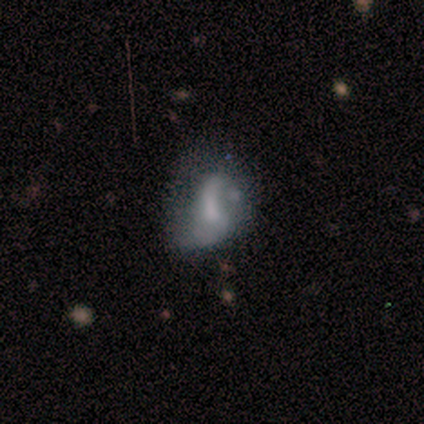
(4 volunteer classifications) Smooth or featured? 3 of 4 (75%) said featured or disk. Edge-on disk? 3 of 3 (100%) said no. Bar? 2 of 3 (67%) said no. Spiral arms? 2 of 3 (67%) said no. Bulge size? 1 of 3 (33%, tied with moderate and none) said large. Merging? 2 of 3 (67%) said major disturbance.